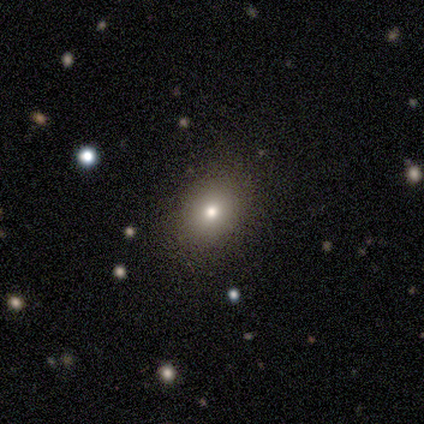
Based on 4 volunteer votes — A star or artifact, not a galaxy (50%).